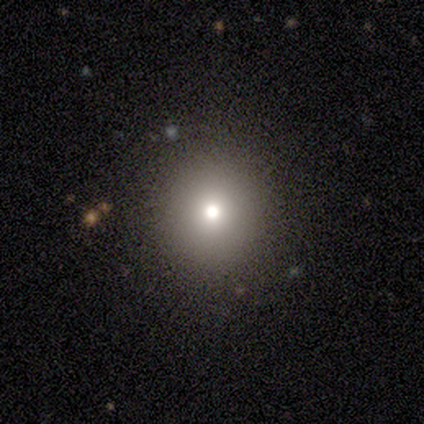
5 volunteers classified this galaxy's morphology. Smooth or featured? 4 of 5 (80%) said smooth. How rounded? 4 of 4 (100%) said round. Merging? 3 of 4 (75%) said none.